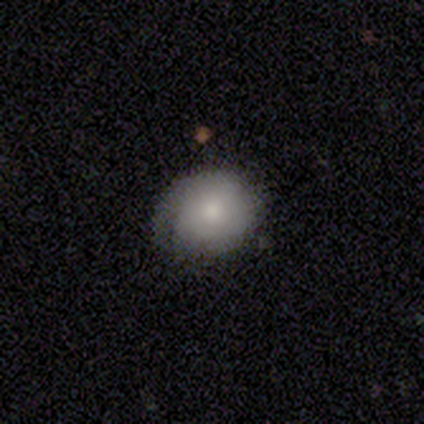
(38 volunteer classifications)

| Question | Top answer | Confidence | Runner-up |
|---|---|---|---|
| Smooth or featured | smooth | 68% | featured or disk (26%) |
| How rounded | round | 73% | in between (27%) |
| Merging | minor disturbance | 50% | none (44%) |